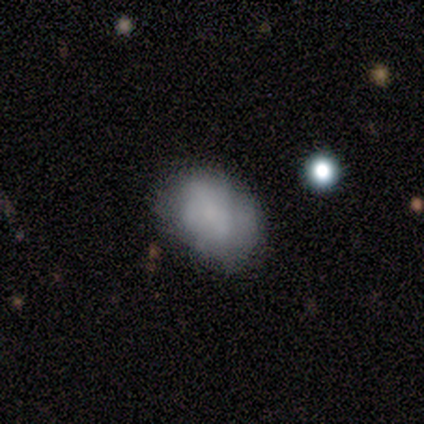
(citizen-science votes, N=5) Smooth or featured? 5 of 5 (100%) said smooth. How rounded? 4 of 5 (80%) said in between. Merging? 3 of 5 (60%) said minor disturbance.